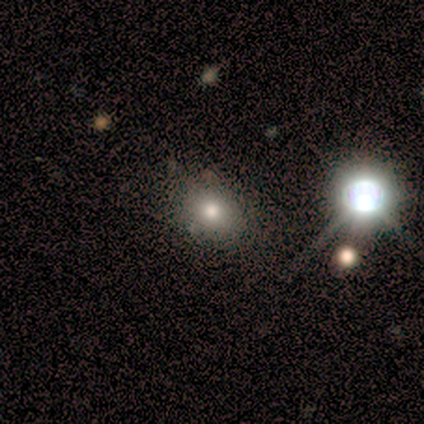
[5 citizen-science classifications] star or artifact 60%, smooth 40%, featured or disk 0%.